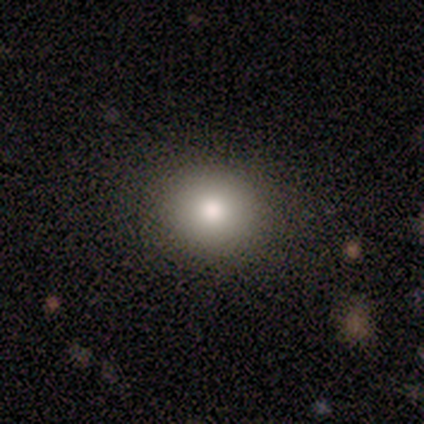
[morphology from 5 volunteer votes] This appears to be a smooth galaxy with no disk features (60%) that is round (100%). Merging: none (100%).